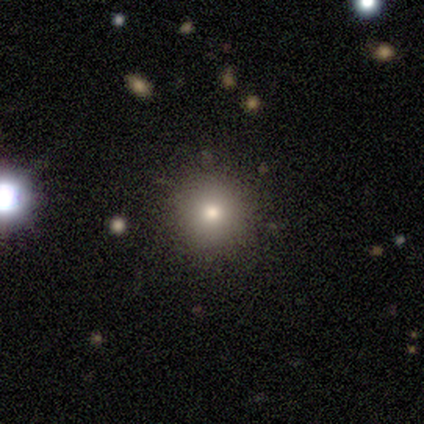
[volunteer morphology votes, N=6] type=smooth (50%); roundness=round (100%); merging=none (100%).